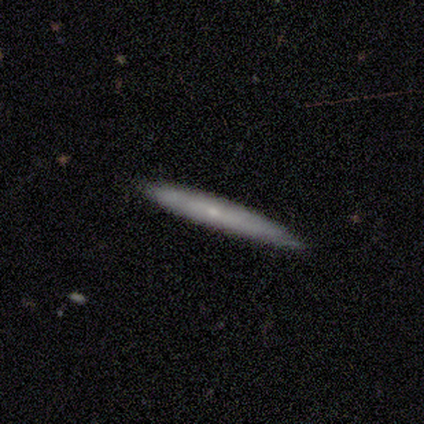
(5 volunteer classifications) Smooth or featured? featured or disk (60%)
Edge-on disk? yes (100%)
Edge-on bulge? rounded (100%)
Merging? none (80%)